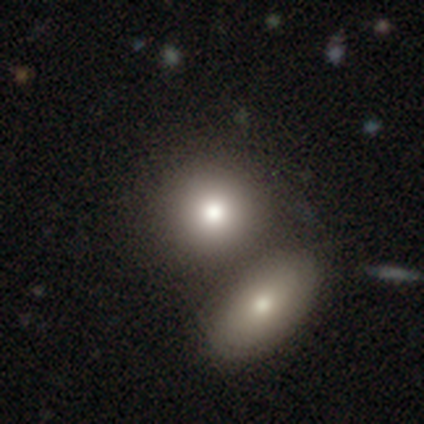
smooth 76%, featured or disk 14%, star or artifact 11%. Down the decision tree: how rounded — round (75%); merging — merger (58%).